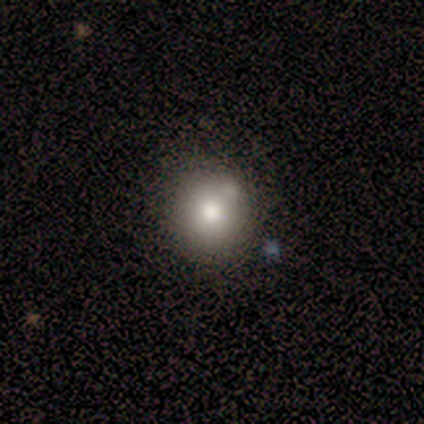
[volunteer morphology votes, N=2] This appears to be a smooth galaxy with no disk features (50%, tied with featured or disk) that is round (100%). Merging: none (50%, tied with merger).